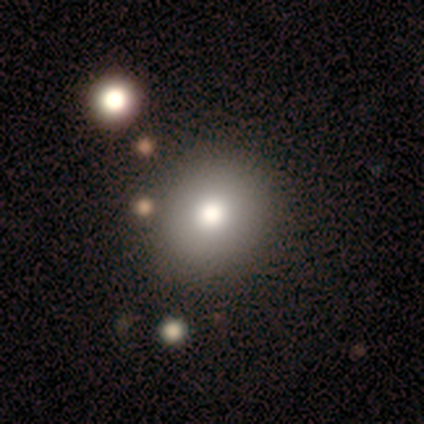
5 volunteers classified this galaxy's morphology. This is clearly a smooth galaxy (80%). How rounded: clearly round (100%). Merging: clearly none (100%).